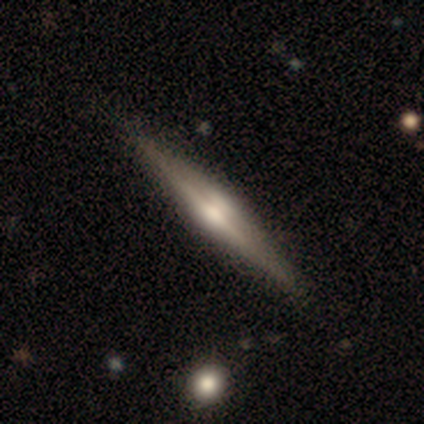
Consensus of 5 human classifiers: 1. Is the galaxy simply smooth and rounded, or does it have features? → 100% featured or disk, 0% smooth, 0% star or artifact.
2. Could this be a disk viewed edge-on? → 100% yes, 0% no.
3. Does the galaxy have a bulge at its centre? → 60% rounded, 20% boxy, 20% none.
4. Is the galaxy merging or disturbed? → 80% none, 20% minor disturbance, 0% major disturbance, 0% merger.